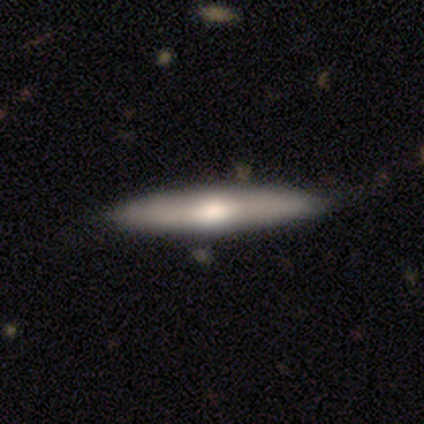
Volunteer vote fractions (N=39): Smooth or featured? featured or disk (51%)
Edge-on disk? yes (85%)
Edge-on bulge? rounded (88%)
Merging? none (59%)